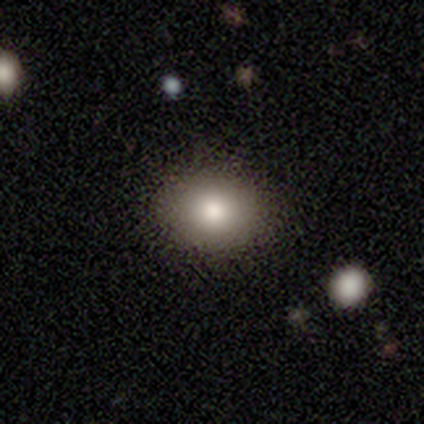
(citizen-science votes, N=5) smooth_or_featured: smooth (p=0.80) [alt: star or artifact p=0.20]
how_rounded: round (p=0.75) [alt: in between p=0.25]
merging: none (p=1.00)